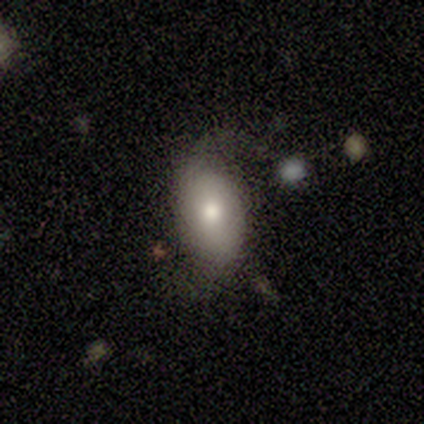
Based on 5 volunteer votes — A featured or disk galaxy (60%) viewed edge-on (67%) with a rounded central bulge (100%).

Vote fractions:
- Smooth or featured? featured or disk: 60% / smooth: 40% / star or artifact: 0%
- Edge-on disk? yes: 67% / no: 33%
- Edge-on bulge? rounded: 100% / boxy: 0% / none: 0%
- Merging? none: 60% / minor disturbance: 20% / major disturbance: 20% / merger: 0%